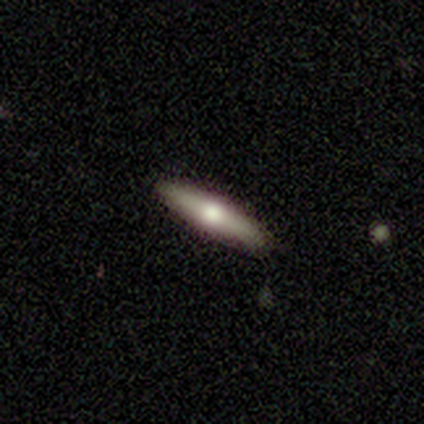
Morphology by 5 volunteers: smooth_or_featured: featured or disk (p=0.80) [alt: smooth p=0.20]
disk_edge_on: yes (p=0.75) [alt: no p=0.25]
edge_on_bulge: rounded (p=1.00)
merging: none (p=0.80) [alt: merger p=0.20]